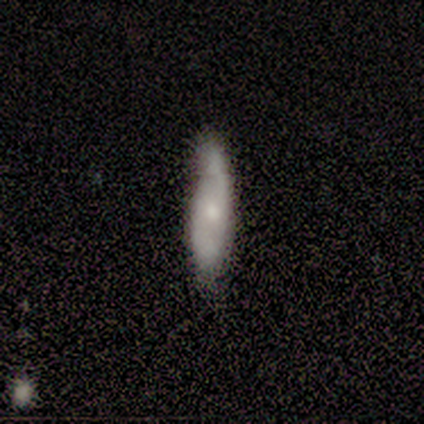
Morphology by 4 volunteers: Q: Smooth or featured?
A: smooth (75%); runner-up: featured or disk (25%)
Q: How rounded?
A: in between (67%); runner-up: cigar-shaped (33%)
Q: Merging?
A: none (75%); runner-up: minor disturbance (25%)